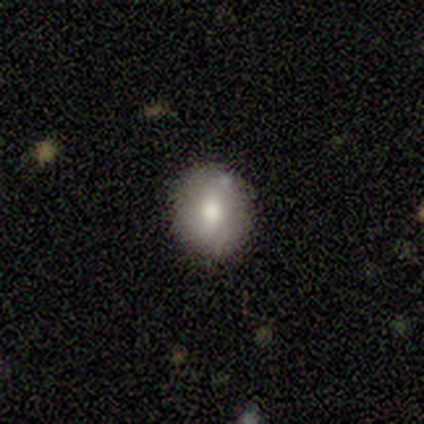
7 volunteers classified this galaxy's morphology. Overall: smooth (43%, tied with featured or disk). How rounded: round (100%). Merging: none (83%).